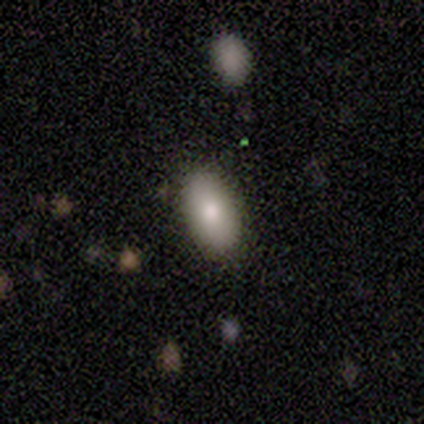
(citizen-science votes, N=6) Smooth or featured? 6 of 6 (100%) said smooth. How rounded? 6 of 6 (100%) said in between. Merging? 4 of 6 (67%) said none.